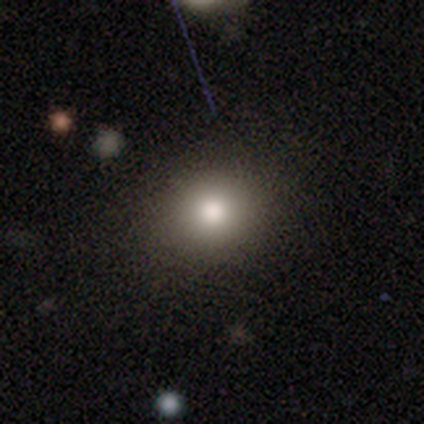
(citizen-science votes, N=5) A smooth galaxy with no disk features (60%) that is round (67%).

Vote fractions:
- Smooth or featured? smooth: 60% / featured or disk: 20% / star or artifact: 20%
- How rounded? round: 67% / in between: 33% / cigar-shaped: 0%
- Merging? none: 50% (tied) / minor disturbance: 50% (tied) / major disturbance: 0% / merger: 0%